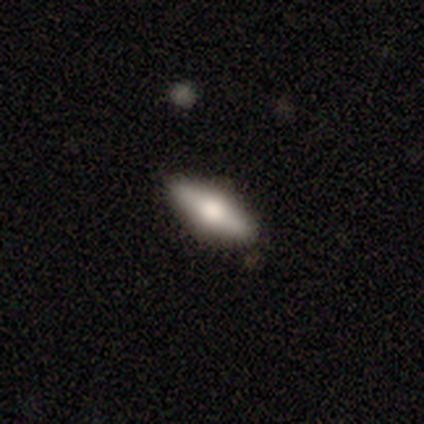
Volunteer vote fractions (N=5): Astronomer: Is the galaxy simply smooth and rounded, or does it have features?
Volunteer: featured or disk — 60% (runner-up: smooth, 40%).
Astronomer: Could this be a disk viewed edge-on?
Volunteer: yes — 67%.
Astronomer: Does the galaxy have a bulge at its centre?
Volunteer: rounded — 100%.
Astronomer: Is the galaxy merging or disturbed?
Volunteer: none — 80%.